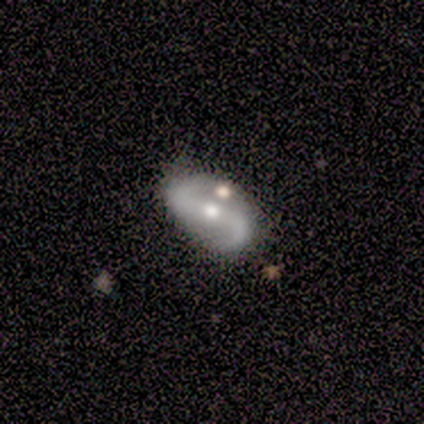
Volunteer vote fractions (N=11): Q: Smooth or featured?
A: featured or disk (64%); runner-up: smooth (18%)
Q: Edge-on disk?
A: no (100%)
Q: Bar?
A: strong (57%); runner-up: no (29%)
Q: Spiral arms?
A: yes (100%)
Q: Spiral winding?
A: loose (71%); runner-up: medium (29%)
Q: Spiral arm count?
A: 2 (100%)
Q: Bulge size?
A: moderate (86%); runner-up: small (14%)
Q: Merging?
A: none (67%); runner-up: minor disturbance (11%)